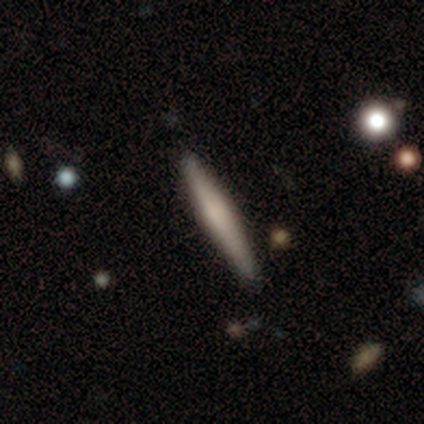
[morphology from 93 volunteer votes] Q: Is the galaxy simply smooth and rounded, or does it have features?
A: smooth — 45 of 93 (48%, tied with featured or disk).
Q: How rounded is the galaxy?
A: cigar-shaped — 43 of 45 (96%).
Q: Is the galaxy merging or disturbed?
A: none — 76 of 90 (84%).